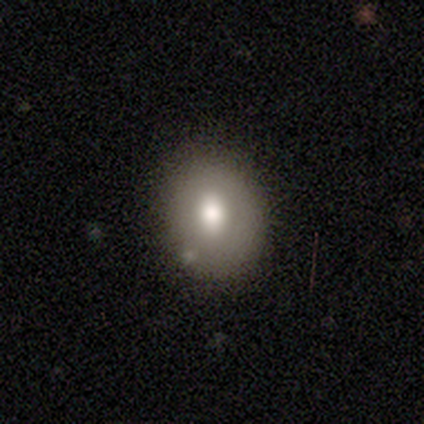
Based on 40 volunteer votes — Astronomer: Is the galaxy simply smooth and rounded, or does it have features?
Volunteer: smooth — 75%.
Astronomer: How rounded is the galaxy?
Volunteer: in between — 50% (runner-up: round, 47%).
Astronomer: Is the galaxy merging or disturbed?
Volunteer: none — 82%.